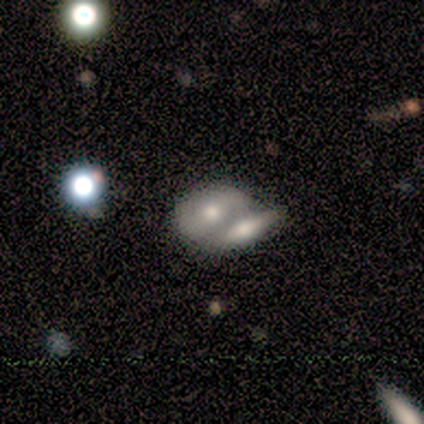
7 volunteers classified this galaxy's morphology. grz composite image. It shows a smooth galaxy with no disk features (57%) that is in between round and cigar-shaped (50%). Merging: merger (86%).